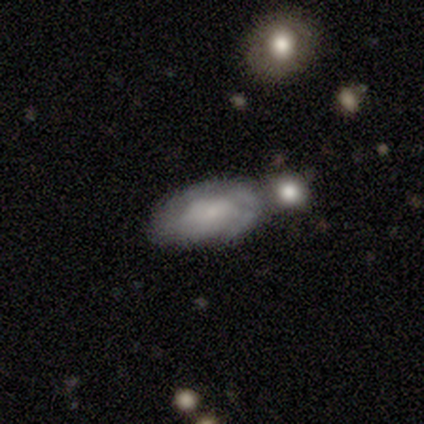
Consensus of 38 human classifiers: smooth 47% (tied), featured or disk 47% (tied), star or artifact 5%. Down the decision tree: how rounded — in between (100%); merging — none (53%).